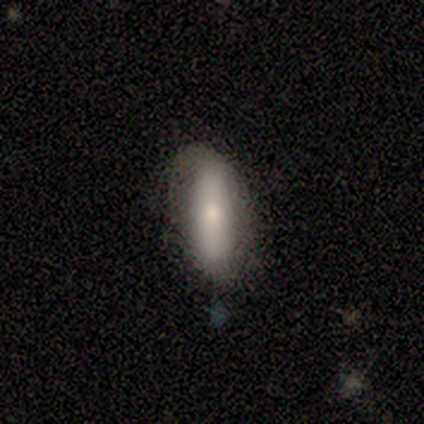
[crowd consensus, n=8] Smooth or featured: smooth — 75% (featured or disk — 25%)
How rounded: in between — 50% (tied with cigar-shaped — 50%)
Merging: none — 50% (minor disturbance — 38%)